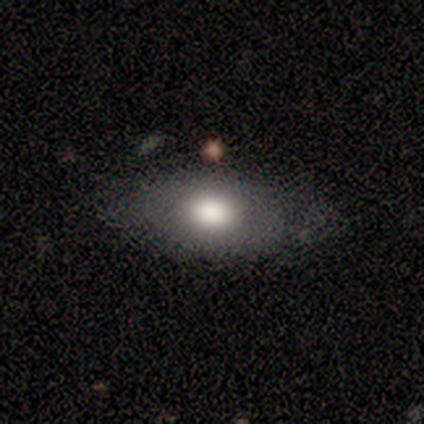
Overall: smooth (76%). How rounded: in between (86%). Merging: none (75%).